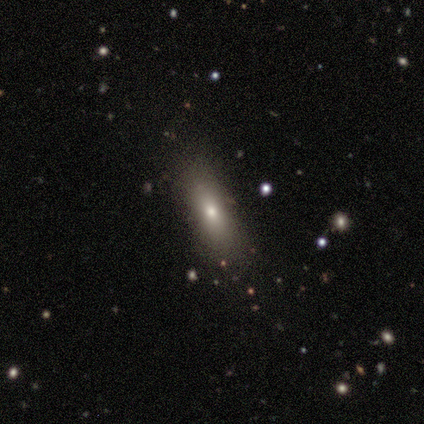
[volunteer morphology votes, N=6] Smooth or featured? 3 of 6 (50%) said smooth. How rounded? 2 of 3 (67%) said cigar-shaped. Merging? 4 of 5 (80%) said none.